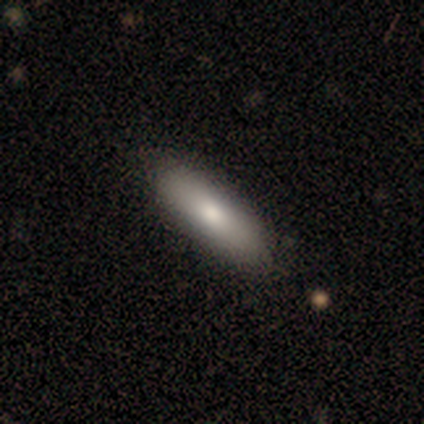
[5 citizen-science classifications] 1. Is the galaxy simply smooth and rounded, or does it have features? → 40% smooth (tied), 40% featured or disk (tied), 20% star or artifact.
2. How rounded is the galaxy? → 50% in between (tied), 50% cigar-shaped (tied), 0% round.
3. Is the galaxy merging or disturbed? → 100% none, 0% minor disturbance, 0% major disturbance, 0% merger.